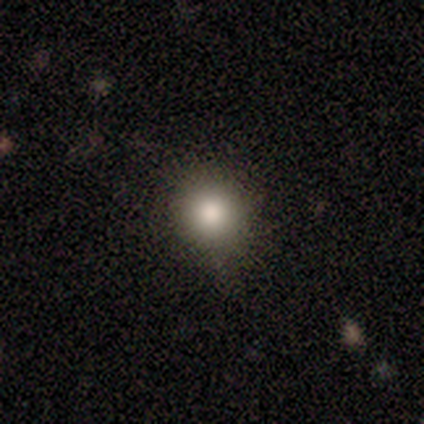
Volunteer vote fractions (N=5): A smooth galaxy with no disk features (80%) that is round (75%).

Vote fractions:
- Smooth or featured? smooth: 80% / star or artifact: 20% / featured or disk: 0%
- How rounded? round: 75% / in between: 25% / cigar-shaped: 0%
- Merging? none: 75% / minor disturbance: 25% / major disturbance: 0% / merger: 0%